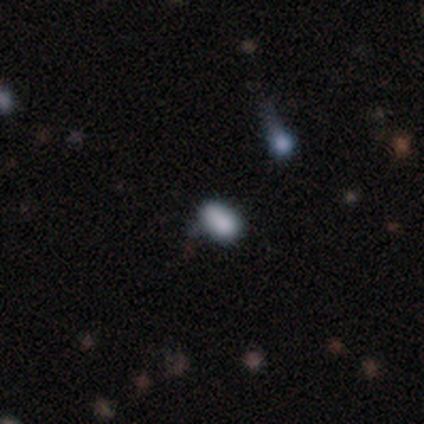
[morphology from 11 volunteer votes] Q: Smooth or featured?
A: smooth (45%); runner-up: star or artifact (36%)
Q: How rounded?
A: in between (60%); runner-up: round (20%)
Q: Merging?
A: minor disturbance (57%); runner-up: none (29%)